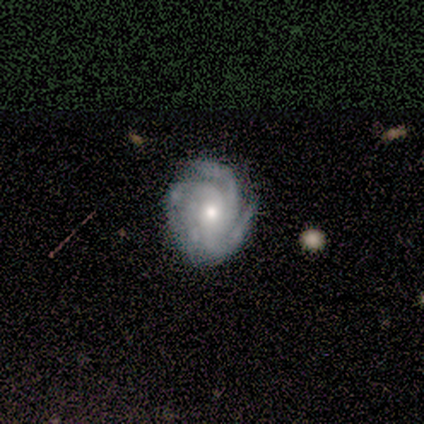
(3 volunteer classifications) Q: Smooth or featured?
A: featured or disk (100%)
Q: Edge-on disk?
A: no (100%)
Q: Bar?
A: no (67%); runner-up: strong (33%)
Q: Spiral arms?
A: yes (100%)
Q: Spiral winding?
A: tight (100%)
Q: Spiral arm count?
A: 3 (67%); runner-up: 4 (33%)
Q: Bulge size?
A: moderate (67%); runner-up: small (33%)
Q: Merging?
A: none (100%)